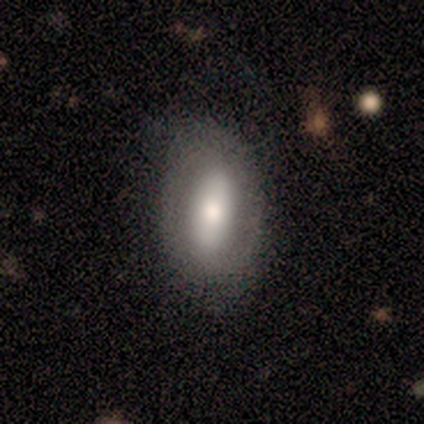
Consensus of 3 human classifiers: Q: Smooth or featured?
A: featured or disk (67%); runner-up: smooth (33%)
Q: Edge-on disk?
A: no (100%)
Q: Bar?
A: no (100%)
Q: Spiral arms?
A: yes (50%); tied with: no (50%)
Q: Spiral winding?
A: medium (100%)
Q: Spiral arm count?
A: can't tell (100%)
Q: Bulge size?
A: large (50%); tied with: small (50%)
Q: Merging?
A: none (100%)